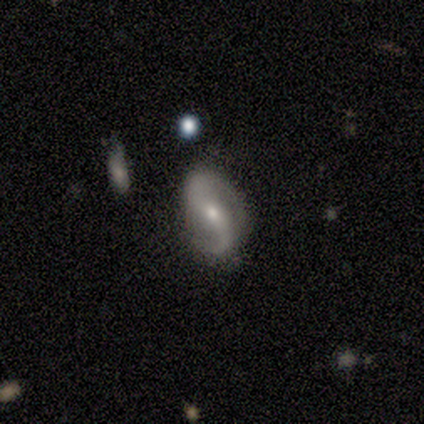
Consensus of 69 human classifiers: Q: Smooth or featured?
A: featured or disk (88%); runner-up: smooth (10%)
Q: Edge-on disk?
A: no (93%); runner-up: yes (7%)
Q: Bar?
A: no (53%); runner-up: weak (28%)
Q: Spiral arms?
A: yes (96%); runner-up: no (4%)
Q: Spiral winding?
A: medium (45%); tied with: loose (45%)
Q: Spiral arm count?
A: 2 (96%); runner-up: 1 (4%)
Q: Bulge size?
A: moderate (49%); tied with: small (49%)
Q: Merging?
A: none (74%); runner-up: minor disturbance (18%)